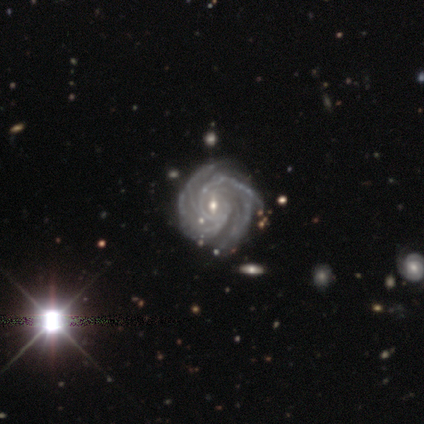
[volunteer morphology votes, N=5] Volunteers were most divided on "bar": no: 60%, weak: 40%, strong: 0%. More confident: smooth or featured — featured or disk (100%); edge-on disk — no (100%); spiral arms — yes (100%); spiral winding — tight (100%); spiral arm count — 4 (100%); bulge size — small (100%); merging — none (100%).